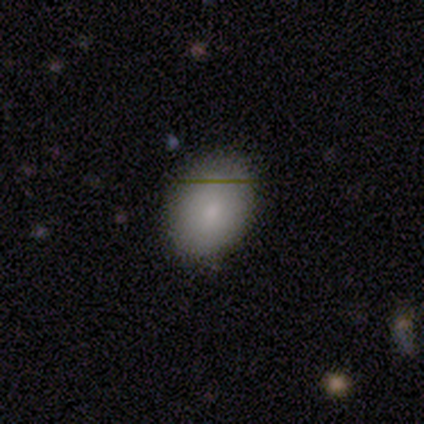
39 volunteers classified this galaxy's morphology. Volunteers were most divided on "how rounded": in between: 69%, round: 31%, cigar-shaped: 0%. More confident: merging — none (95%); smooth or featured — smooth (90%).